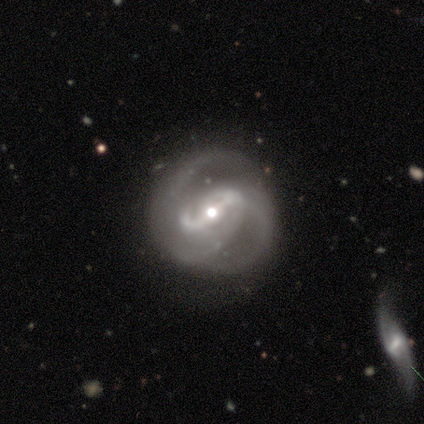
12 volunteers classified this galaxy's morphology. Smooth or featured: featured or disk — 100%
Edge-on disk: no — 92% (yes — 8%)
Bar: strong — 55% (weak — 45%)
Spiral arms: yes — 91% (no — 9%)
Spiral winding: medium — 60% (tight — 20%)
Spiral arm count: 2 — 70% (can't tell — 30%)
Bulge size: moderate — 73% (small — 27%)
Merging: none — 50% (major disturbance — 33%)